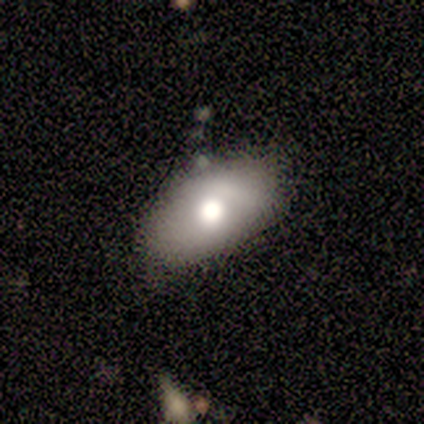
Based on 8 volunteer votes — Morphology: type=smooth (62%); roundness=in between (80%); merging=none (100%).